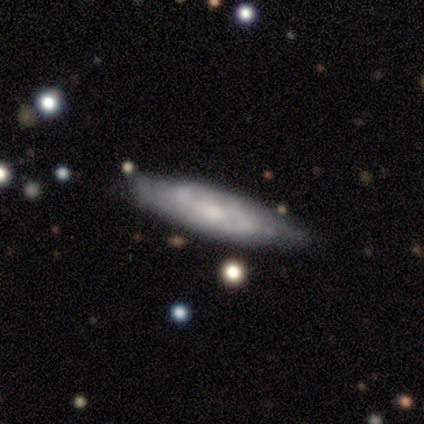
Smooth or featured? 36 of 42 (86%) said featured or disk. Edge-on disk? 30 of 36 (83%) said no. Bar? 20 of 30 (67%) said no. Spiral arms? 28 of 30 (93%) said yes. Spiral winding? 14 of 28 (50%) said tight. Spiral arm count? 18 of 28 (64%) said 2. Bulge size? 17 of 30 (57%) said small. Merging? 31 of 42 (74%) said none.